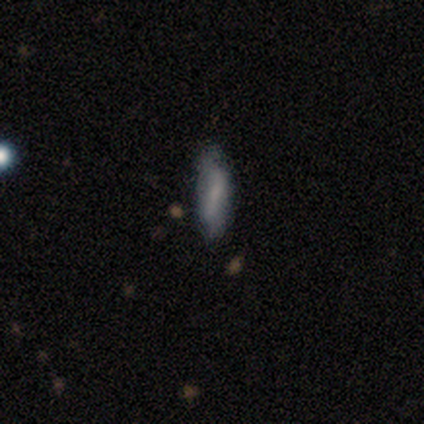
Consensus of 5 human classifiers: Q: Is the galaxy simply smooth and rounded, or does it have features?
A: smooth — 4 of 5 (80%).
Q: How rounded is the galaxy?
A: cigar-shaped — 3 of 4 (75%).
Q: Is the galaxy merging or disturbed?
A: none — 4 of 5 (80%).